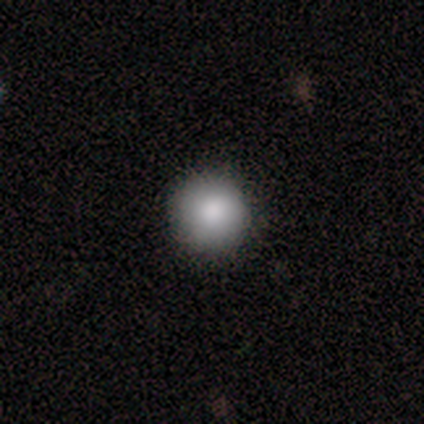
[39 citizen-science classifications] A smooth galaxy with no disk features (82%) that is round (100%).

Vote fractions:
- Smooth or featured? smooth: 82% / star or artifact: 10% / featured or disk: 8%
- How rounded? round: 100% / in between: 0% / cigar-shaped: 0%
- Merging? none: 94% / minor disturbance: 6% / major disturbance: 0% / merger: 0%